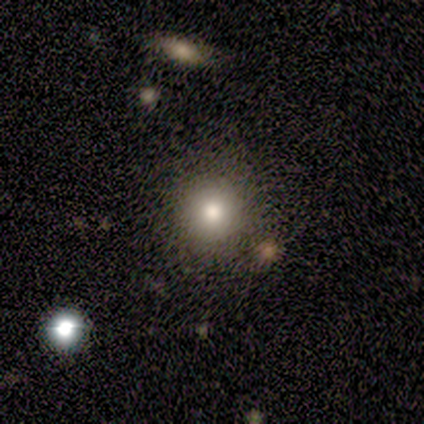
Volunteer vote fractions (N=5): Volunteers were most divided on "smooth or featured": smooth: 80%, featured or disk: 20%, star or artifact: 0%. More confident: how rounded — round (100%); merging — none (100%).